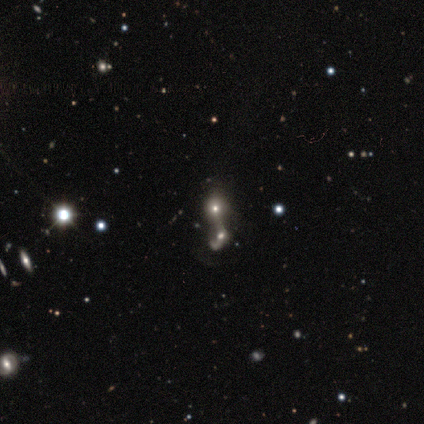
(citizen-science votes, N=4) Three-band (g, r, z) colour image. It shows a smooth galaxy with no disk features (50%, tied with star or artifact) that is round (50%, tied with in between). Merging: merger (100%).